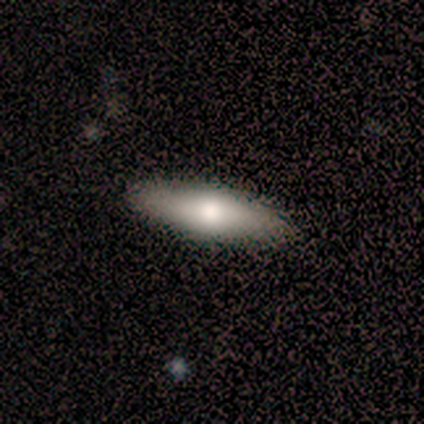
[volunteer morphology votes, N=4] This is possibly a smooth galaxy (50%, tied with featured or disk). How rounded: clearly cigar-shaped (100%). Merging: likely none (75%).